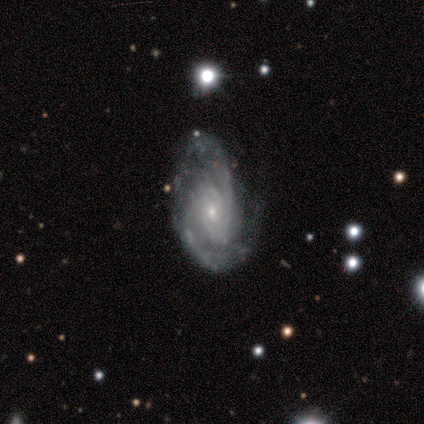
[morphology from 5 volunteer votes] Overall: featured or disk (100%). Edge-on disk: no (100%). Bar: no (80%). Spiral arms: yes (100%). Spiral arm count: can't tell (40%; 2 20%). Spiral winding: tight (60%; medium 40%). Bulge size: small (80%). Merging: none (40%, tied with minor disturbance).